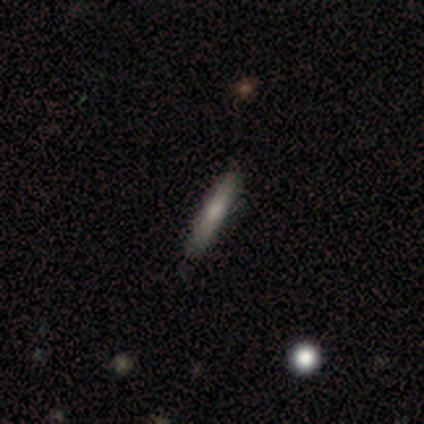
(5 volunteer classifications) Morphology: type=smooth (80%); roundness=cigar-shaped (100%); merging=none (60%).